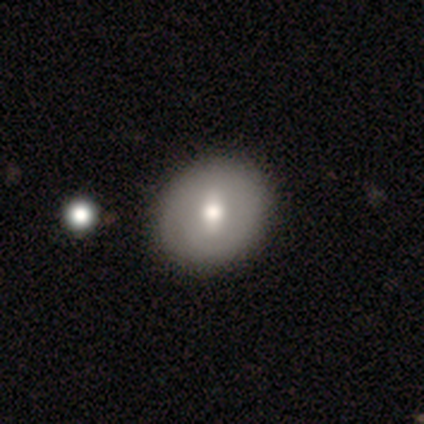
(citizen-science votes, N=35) A smooth galaxy with no disk features (54%) that is round (79%).

Vote fractions:
- Smooth or featured? smooth: 54% / featured or disk: 37% / star or artifact: 9%
- How rounded? round: 79% / in between: 21% / cigar-shaped: 0%
- Merging? none: 59% / minor disturbance: 3% / merger: 3% / major disturbance: 0%